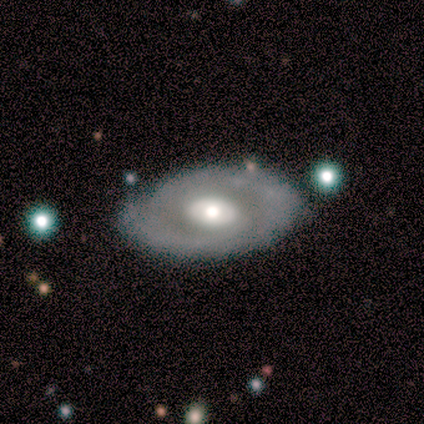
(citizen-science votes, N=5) smooth-or-featured: smooth: 40% (tied) | featured or disk: 40% (tied) | star or artifact: 20%
  how-rounded: in between: 100% | round: 0% | cigar-shaped: 0%
  merging: none: 75% | merger: 25% | minor disturbance: 0% | major disturbance: 0%